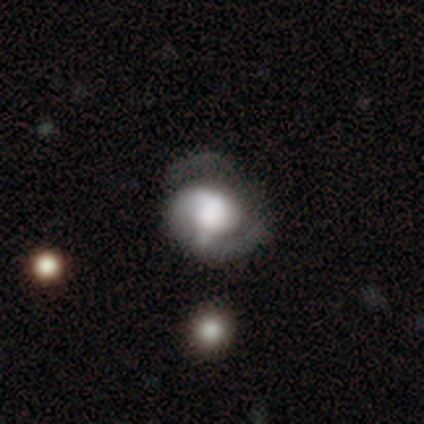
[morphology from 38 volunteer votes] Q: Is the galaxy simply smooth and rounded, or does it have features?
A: featured or disk — 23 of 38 (61%).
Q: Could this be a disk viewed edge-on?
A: no — 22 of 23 (96%).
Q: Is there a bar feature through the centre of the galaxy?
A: no — 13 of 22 (59%).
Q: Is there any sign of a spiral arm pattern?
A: yes — 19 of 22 (86%).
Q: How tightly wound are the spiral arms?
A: tight — 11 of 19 (58%).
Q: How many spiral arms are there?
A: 2 — 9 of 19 (47%).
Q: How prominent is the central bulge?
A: large — 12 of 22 (55%).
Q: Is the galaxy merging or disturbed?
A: none — 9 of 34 (26%).